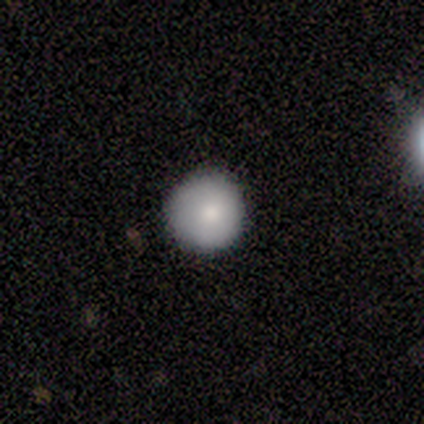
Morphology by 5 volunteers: A smooth galaxy with no disk features (100%) that is round (60%).

Vote fractions:
- Smooth or featured? smooth: 100% / featured or disk: 0% / star or artifact: 0%
- How rounded? round: 60% / in between: 40% / cigar-shaped: 0%
- Merging? none: 80% / minor disturbance: 20% / major disturbance: 0% / merger: 0%